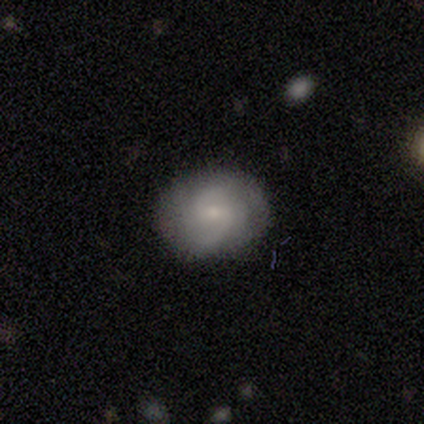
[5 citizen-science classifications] Smooth or featured? smooth (40%, tied with featured or disk)
How rounded? in between (100%)
Merging? none (100%)